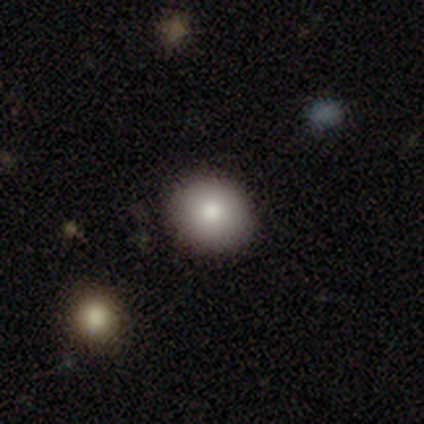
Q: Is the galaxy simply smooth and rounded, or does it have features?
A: smooth — 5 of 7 (71%).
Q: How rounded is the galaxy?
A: round — 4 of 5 (80%).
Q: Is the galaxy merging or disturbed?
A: none — 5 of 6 (83%).